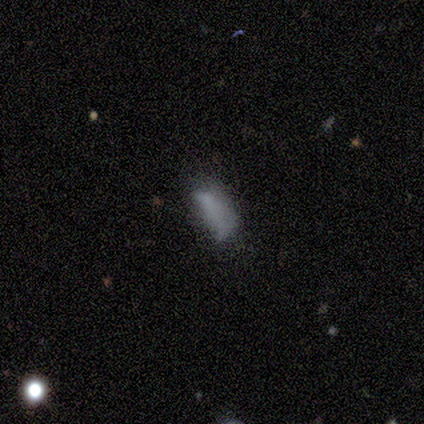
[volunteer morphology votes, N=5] smooth-or-featured: smooth: 60% | featured or disk: 20% | star or artifact: 20%
  how-rounded: in between: 100% | round: 0% | cigar-shaped: 0%
  merging: minor disturbance: 50% | none: 25% | major disturbance: 25% | merger: 0%